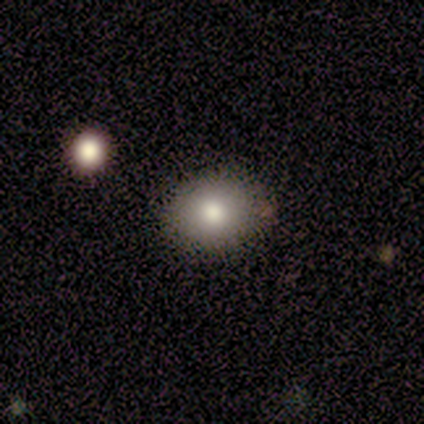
smooth_or_featured: smooth (p=0.80) [alt: featured or disk p=0.20]
how_rounded: round (p=1.00)
merging: none (p=1.00)